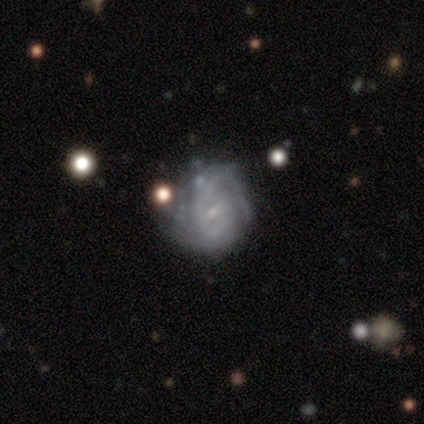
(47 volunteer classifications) smooth_or_featured: featured or disk (p=0.87) [alt: smooth p=0.06]
disk_edge_on: no (p=0.95) [alt: yes p=0.05]
bar: weak (p=0.59) [alt: no p=0.38]
has_spiral_arms: yes (p=0.95) [alt: no p=0.05]
spiral_winding: tight (p=0.65) [alt: medium p=0.27]
spiral_arm_count: can't tell (p=0.57) [alt: 2 p=0.19]
bulge_size: small (p=0.82) [alt: moderate p=0.10]
merging: none (p=0.57) [alt: minor disturbance p=0.30]